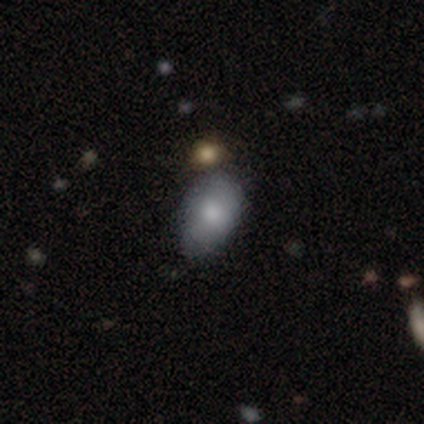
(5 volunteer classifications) This appears to be a smooth galaxy with no disk features (100%) that is in between round and cigar-shaped (100%). Merging: none (80%).